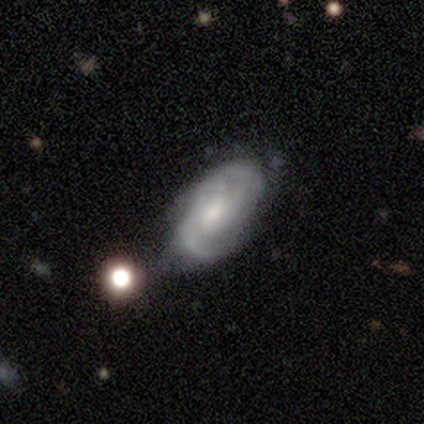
Smooth or featured? featured or disk (100%)
Edge-on disk? no (100%)
Bar? no (60%)
Spiral arms? yes (100%)
Spiral winding? tight (60%)
Spiral arm count? 2 (40%, tied with can't tell)
Bulge size? small (80%)
Merging? none (60%)